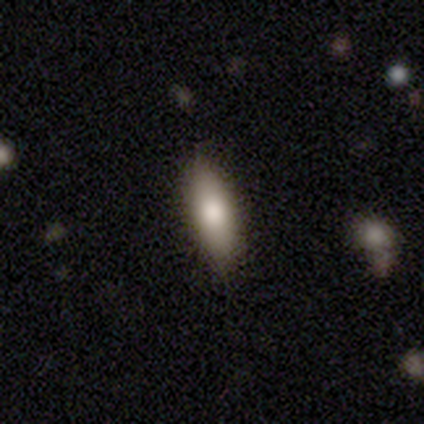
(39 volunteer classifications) Overall: smooth (74%). How rounded: in between (55%; cigar-shaped 41%). Merging: none (92%).